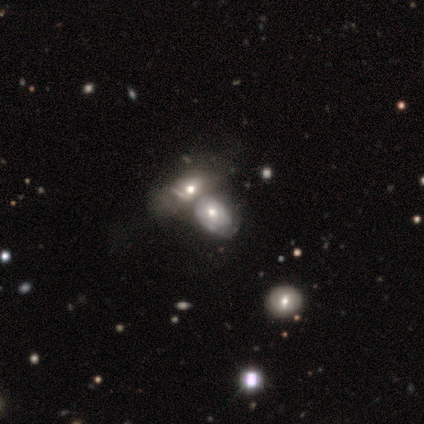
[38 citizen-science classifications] smooth-or-featured: featured or disk: 47% | smooth: 37% | star or artifact: 16%
  disk-edge-on: no: 100% | yes: 0%
    bar: no: 72% | weak: 22% | strong: 6%
    has-spiral-arms: yes: 50% (tied) | no: 50% (tied)
      spiral-winding: tight: 56% | medium: 44% | loose: 0%
      spiral-arm-count: can't tell: 78% | 2: 11% | 4: 11% | 1: 0% | 3: 0% | more than 4: 0%
    bulge-size: moderate: 83% | large: 6% | small: 6% | none: 6% | dominant: 0%
  merging: merger: 66% | none: 25% | major disturbance: 6% | minor disturbance: 3%